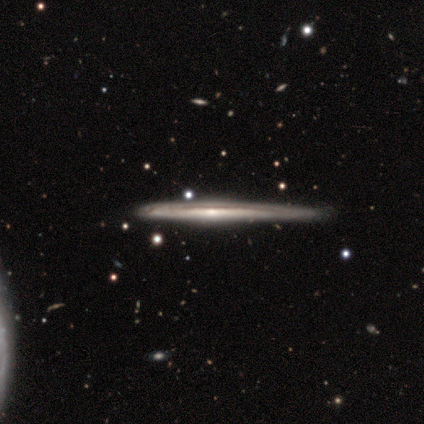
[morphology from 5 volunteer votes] smooth-or-featured: featured or disk: 80% | smooth: 20% | star or artifact: 0%
  disk-edge-on: yes: 100% | no: 0%
    edge-on-bulge: none: 75% | rounded: 25% | boxy: 0%
  merging: none: 60% | minor disturbance: 40% | major disturbance: 0% | merger: 0%